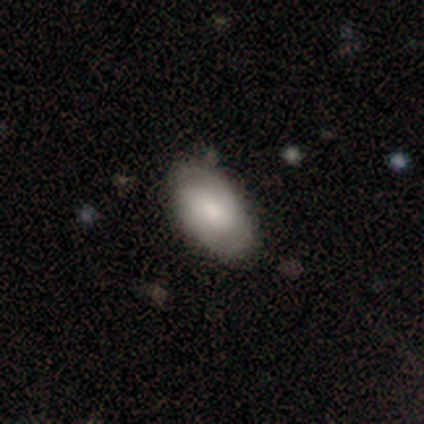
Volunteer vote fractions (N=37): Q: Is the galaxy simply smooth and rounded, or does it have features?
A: smooth — 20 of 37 (54%).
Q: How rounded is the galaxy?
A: in between — 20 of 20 (100%).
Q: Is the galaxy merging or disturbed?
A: none — 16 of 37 (43%).